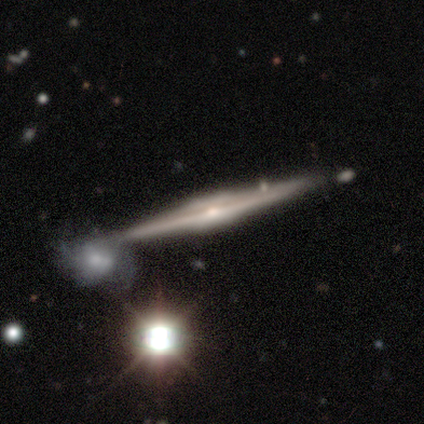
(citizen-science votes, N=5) Smooth or featured: featured or disk — 100%
Edge-on disk: yes — 100%
Edge-on bulge: rounded — 60% (boxy — 40%)
Merging: none — 100%